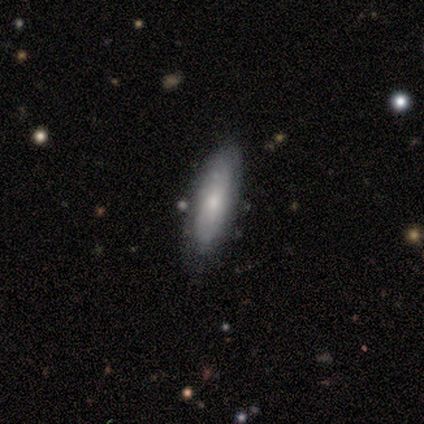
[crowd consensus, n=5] This appears to be a smooth galaxy with no disk features (80%) that is in between round and cigar-shaped (75%). Merging: none (100%).